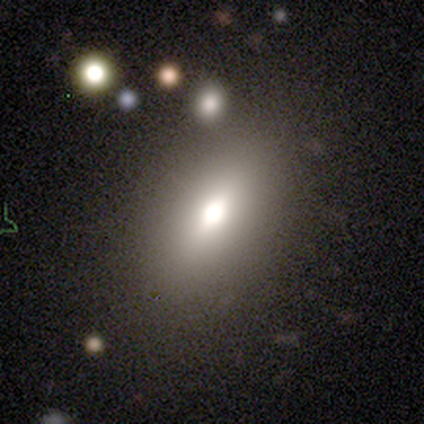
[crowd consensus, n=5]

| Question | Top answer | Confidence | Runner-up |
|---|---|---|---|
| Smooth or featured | smooth | 60% | featured or disk (40%) |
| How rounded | in between | 100% | — |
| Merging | none | 100% | — |